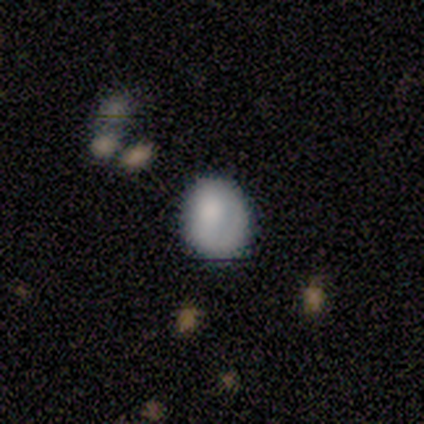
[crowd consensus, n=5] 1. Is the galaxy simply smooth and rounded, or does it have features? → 100% smooth, 0% featured or disk, 0% star or artifact.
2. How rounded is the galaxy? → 80% in between, 20% round, 0% cigar-shaped.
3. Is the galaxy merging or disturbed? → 80% minor disturbance, 20% none, 0% major disturbance, 0% merger.